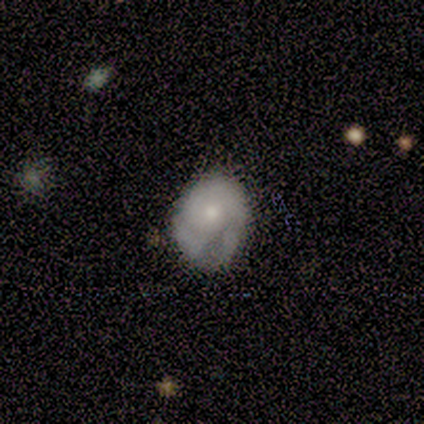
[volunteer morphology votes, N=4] smooth_or_featured: smooth (p=0.50) [tied with: featured or disk p=0.50]
how_rounded: round (p=0.50) [tied with: in between p=0.50]
merging: minor disturbance (p=0.50) [alt: none p=0.25]